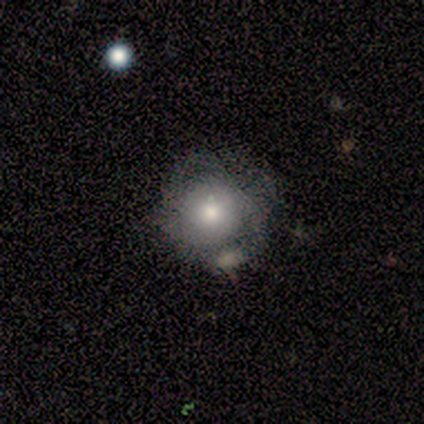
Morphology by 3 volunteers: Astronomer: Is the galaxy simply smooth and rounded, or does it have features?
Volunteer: featured or disk — 67%.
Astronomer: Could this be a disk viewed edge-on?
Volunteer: no — 100%.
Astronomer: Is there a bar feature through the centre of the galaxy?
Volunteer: no — 100%.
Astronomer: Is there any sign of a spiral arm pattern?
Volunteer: yes — 50%, tied with no at 50%.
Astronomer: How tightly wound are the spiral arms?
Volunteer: tight — 100%.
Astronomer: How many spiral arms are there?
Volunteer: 2 — 100%.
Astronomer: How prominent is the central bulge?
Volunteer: large — 50%, tied with small at 50%.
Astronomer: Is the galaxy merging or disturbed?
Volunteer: none — 67%.